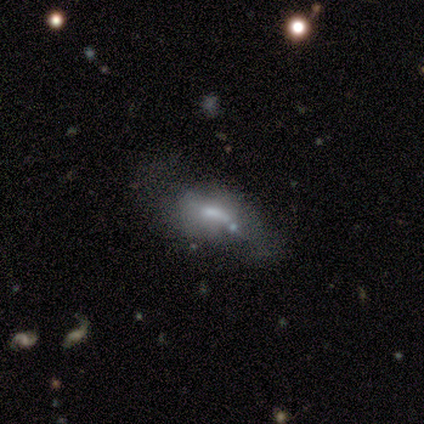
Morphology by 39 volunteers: smooth-or-featured: featured or disk: 49% | star or artifact: 31% | smooth: 21%
  disk-edge-on: no: 84% | yes: 16%
    bar: weak: 62% | no: 31% | strong: 6%
    has-spiral-arms: no: 75% | yes: 25%
    bulge-size: small: 38% | moderate: 31% | large: 19% | none: 12% | dominant: 0%
  merging: major disturbance: 33% | none: 30% | minor disturbance: 19% | merger: 19%